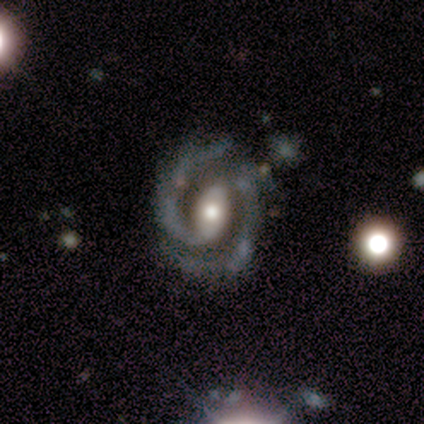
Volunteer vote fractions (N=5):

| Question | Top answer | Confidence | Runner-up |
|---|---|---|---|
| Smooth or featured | featured or disk | 100% | — |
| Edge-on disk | no | 100% | — |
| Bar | strong | 40% | tied: no (40%) |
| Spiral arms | yes | 100% | — |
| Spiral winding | medium | 60% | tight (20%) |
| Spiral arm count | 2 | 100% | — |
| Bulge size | moderate | 60% | large (20%) |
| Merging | none | 80% | merger (20%) |